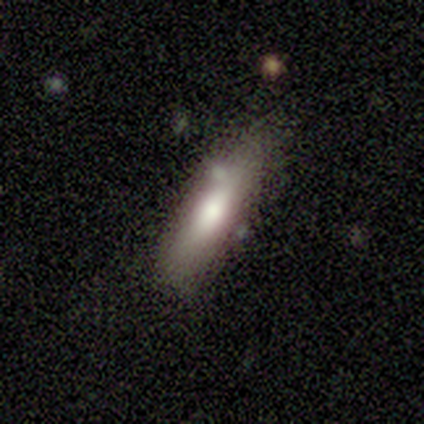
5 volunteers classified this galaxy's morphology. Q: Smooth or featured?
A: smooth (60%); runner-up: featured or disk (40%)
Q: How rounded?
A: in between (100%)
Q: Merging?
A: none (80%); runner-up: minor disturbance (20%)